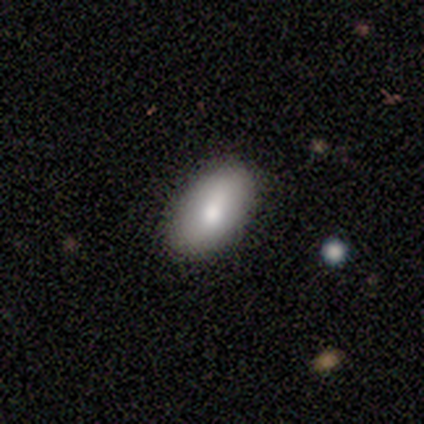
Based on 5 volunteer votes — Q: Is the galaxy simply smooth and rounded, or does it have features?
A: smooth — 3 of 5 (60%).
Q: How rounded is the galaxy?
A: in between — 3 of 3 (100%).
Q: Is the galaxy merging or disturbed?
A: none — 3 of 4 (75%).